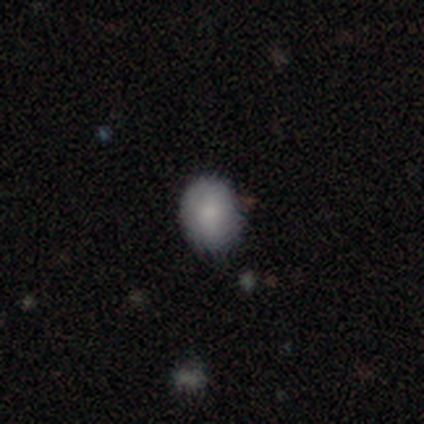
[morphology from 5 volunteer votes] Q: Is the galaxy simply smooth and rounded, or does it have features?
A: smooth — 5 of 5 (100%).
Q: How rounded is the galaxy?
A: round — 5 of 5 (100%).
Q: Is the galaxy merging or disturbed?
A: none — 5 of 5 (100%).